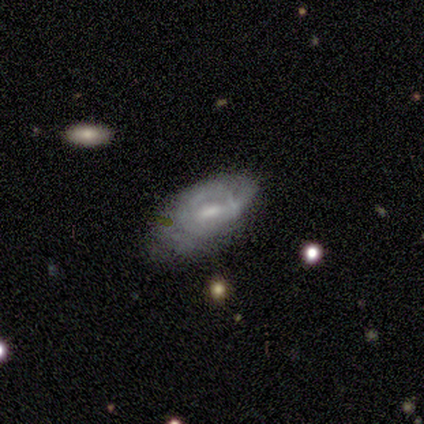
A featured or disk galaxy (71%) with a weak bar (76%), tight (50%) spiral arms (73%) and a moderate central bulge (52%). Merging: none (44%).